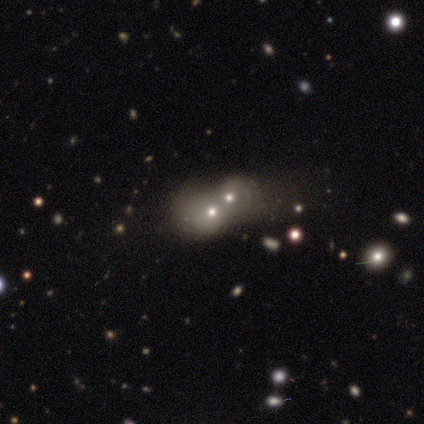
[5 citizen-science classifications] smooth-or-featured: featured or disk: 80% | smooth: 20% | star or artifact: 0%
  disk-edge-on: no: 100% | yes: 0%
    bar: no: 100% | strong: 0% | weak: 0%
    has-spiral-arms: no: 75% | yes: 25%
    bulge-size: small: 75% | moderate: 25% | dominant: 0% | large: 0% | none: 0%
  merging: merger: 100% | none: 0% | minor disturbance: 0% | major disturbance: 0%